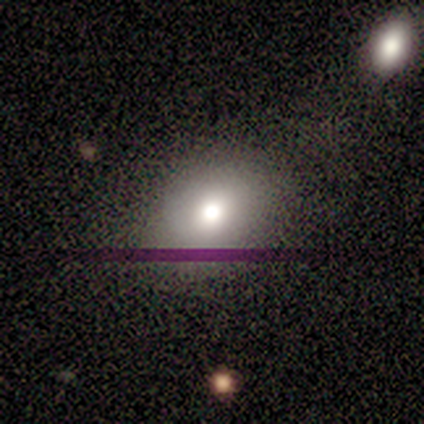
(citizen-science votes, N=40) Smooth or featured? 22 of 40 (55%) said smooth. How rounded? 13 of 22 (59%) said in between. Merging? 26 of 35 (74%) said none.